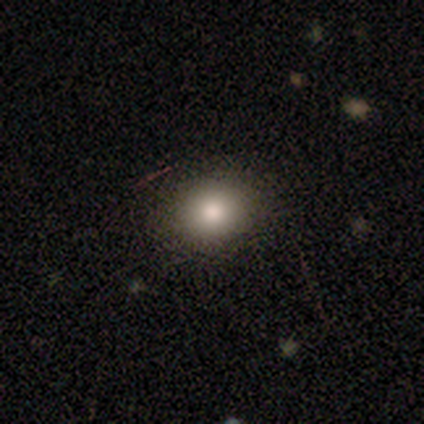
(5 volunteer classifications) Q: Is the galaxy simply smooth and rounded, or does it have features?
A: smooth — 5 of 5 (100%).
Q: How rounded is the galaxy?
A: round — 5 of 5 (100%).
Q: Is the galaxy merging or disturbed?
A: none — 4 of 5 (80%).